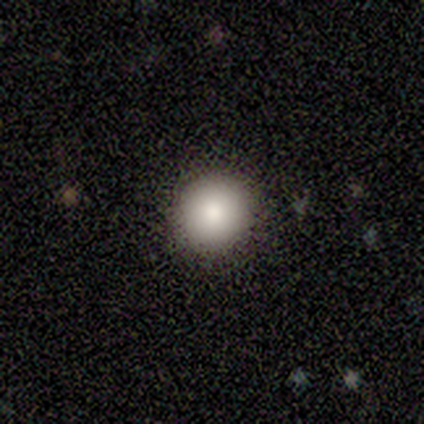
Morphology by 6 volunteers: smooth-or-featured: smooth: 83% | featured or disk: 17% | star or artifact: 0%
  how-rounded: round: 80% | in between: 20% | cigar-shaped: 0%
  merging: none: 100% | minor disturbance: 0% | major disturbance: 0% | merger: 0%